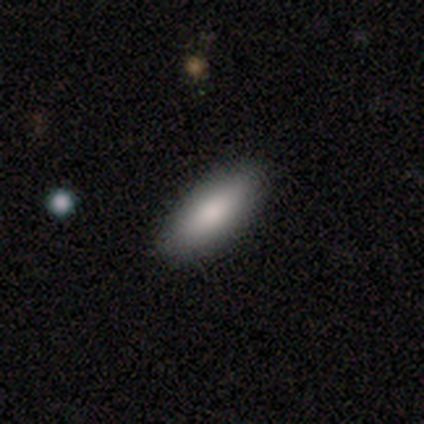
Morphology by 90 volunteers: This is clearly a smooth galaxy (84%). How rounded: likely in between (64%). Merging: clearly none (90%).